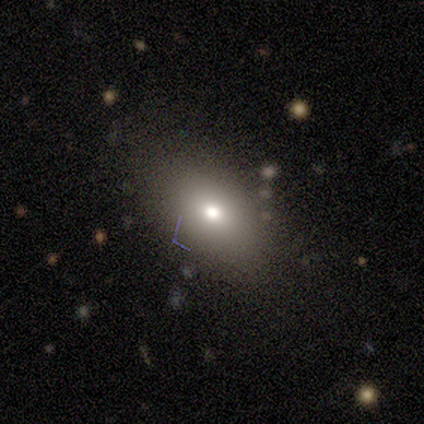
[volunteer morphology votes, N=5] This appears to be a smooth galaxy with no disk features (80%) that is in between round and cigar-shaped (100%). Merging: none (60%).